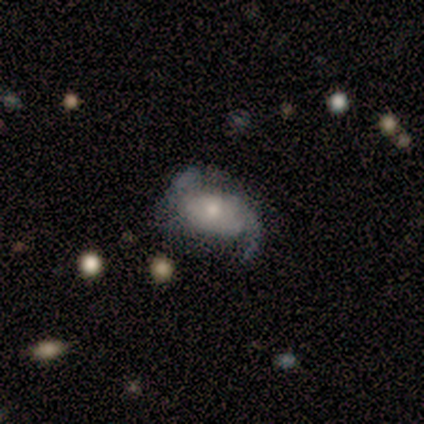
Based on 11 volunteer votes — smooth_or_featured: featured or disk (p=1.00)
disk_edge_on: no (p=1.00)
bar: no (p=0.64) [alt: weak p=0.27]
has_spiral_arms: yes (p=1.00)
spiral_winding: loose (p=0.55) [alt: medium p=0.36]
spiral_arm_count: 2 (p=0.91) [alt: 1 p=0.09]
bulge_size: moderate (p=0.55) [alt: small p=0.27]
merging: none (p=0.64) [alt: minor disturbance p=0.18]